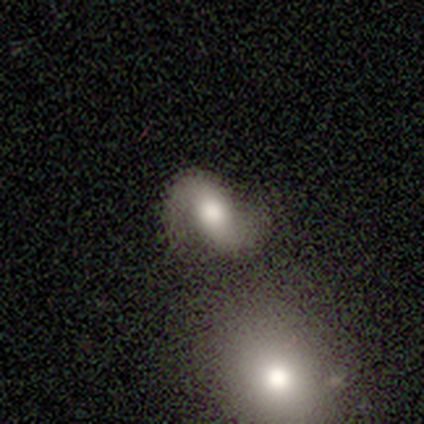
smooth_or_featured: featured or disk (p=0.87) [alt: smooth p=0.13]
disk_edge_on: no (p=1.00)
bar: no (p=0.41) [alt: weak p=0.38]
has_spiral_arms: yes (p=0.85) [alt: no p=0.15]
spiral_winding: medium (p=0.45) [alt: loose p=0.41]
spiral_arm_count: 2 (p=0.93) [alt: can't tell p=0.07]
bulge_size: large (p=0.44) [alt: moderate p=0.41]
merging: none (p=0.54) [alt: merger p=0.23]